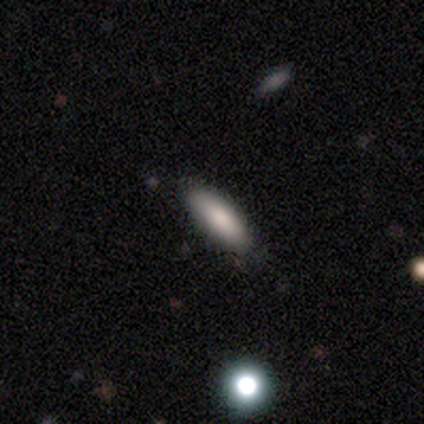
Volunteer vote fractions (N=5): Morphology: type=smooth (80%); roundness=in between (50%, tied with cigar-shaped); merging=minor disturbance (75%).